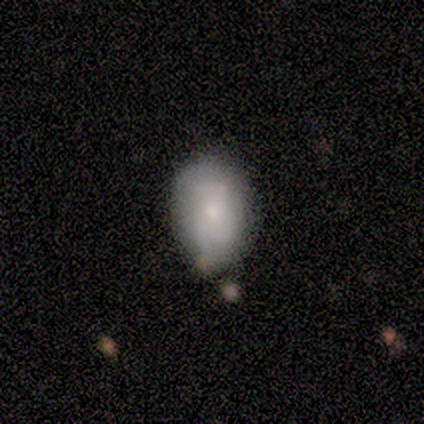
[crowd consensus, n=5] featured or disk 60%, smooth 40%, star or artifact 0%. Down the decision tree: edge-on disk — no (100%); bar — no (100%); spiral arms — no (67%); bulge size — small (67%); merging — none (60%).